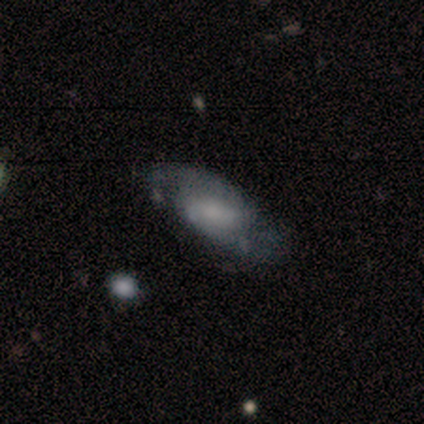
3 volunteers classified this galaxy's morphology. type=featured or disk (67%); edge-on=no (100%); bar=weak (50%, tied with no); spiral arms=yes (100%); winding=medium (50%, tied with loose); arm count=2 (100%); bulge=large (50%, tied with small); merging=none (33%, tied with minor disturbance and major disturbance).